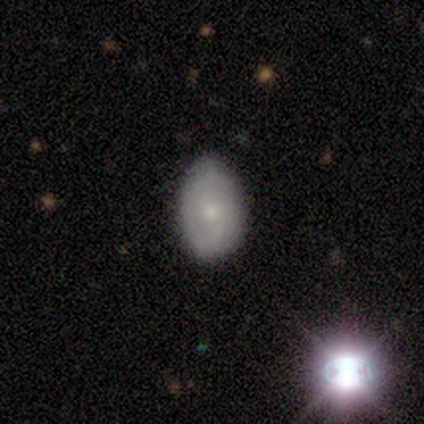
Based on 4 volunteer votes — smooth_or_featured: featured or disk (p=0.75) [alt: smooth p=0.25]
disk_edge_on: no (p=1.00)
bar: no (p=0.67) [alt: weak p=0.33]
has_spiral_arms: yes (p=1.00)
spiral_winding: tight (p=0.67) [alt: loose p=0.33]
spiral_arm_count: can't tell (p=0.67) [alt: 2 p=0.33]
bulge_size: moderate (p=0.33) [tied with: small p=0.33, none p=0.33]
merging: none (p=0.75) [alt: minor disturbance p=0.25]